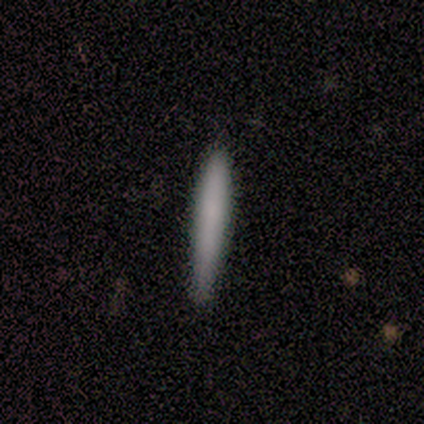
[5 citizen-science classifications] Q: Smooth or featured?
A: smooth (100%)
Q: How rounded?
A: cigar-shaped (100%)
Q: Merging?
A: none (80%); runner-up: minor disturbance (20%)